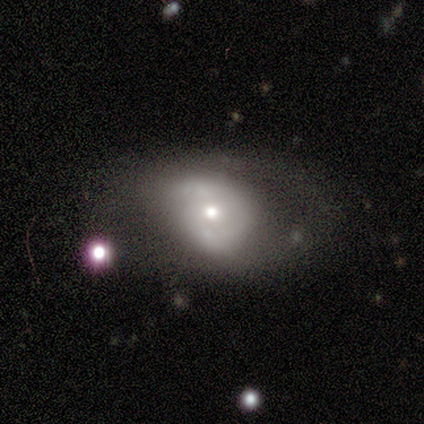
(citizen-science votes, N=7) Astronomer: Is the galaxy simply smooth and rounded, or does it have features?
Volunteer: featured or disk — 57%.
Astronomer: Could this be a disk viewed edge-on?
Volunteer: no — 100%.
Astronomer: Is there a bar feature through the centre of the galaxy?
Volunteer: no — 75%.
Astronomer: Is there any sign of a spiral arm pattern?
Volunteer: yes — 75%.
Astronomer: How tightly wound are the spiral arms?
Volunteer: loose — 67%.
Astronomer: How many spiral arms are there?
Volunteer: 1 — 67%.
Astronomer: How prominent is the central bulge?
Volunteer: moderate — 75%.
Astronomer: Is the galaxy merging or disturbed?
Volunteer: none — 50% (runner-up: minor disturbance, 33%).